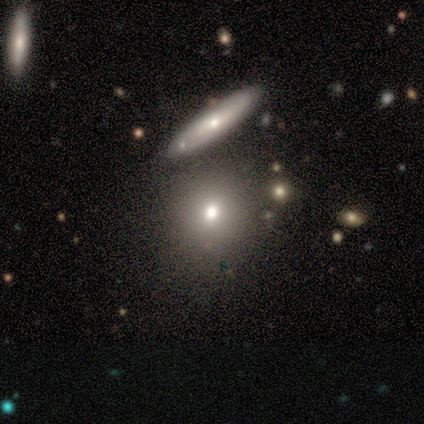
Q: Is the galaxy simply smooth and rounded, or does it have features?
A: smooth — 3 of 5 (60%).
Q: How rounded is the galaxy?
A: round — 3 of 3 (100%).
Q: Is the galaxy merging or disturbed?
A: none — 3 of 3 (100%).